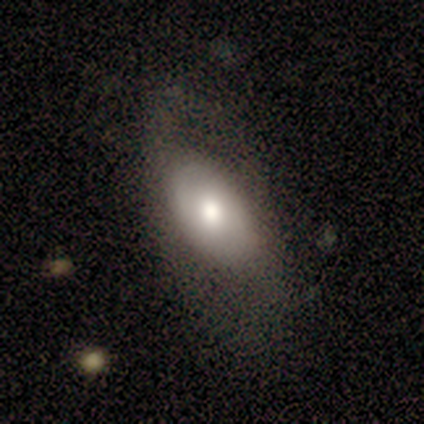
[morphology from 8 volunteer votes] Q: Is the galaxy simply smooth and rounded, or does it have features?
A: featured or disk — 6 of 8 (75%).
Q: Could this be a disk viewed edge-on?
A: no — 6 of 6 (100%).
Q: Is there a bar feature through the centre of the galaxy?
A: no — 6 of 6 (100%).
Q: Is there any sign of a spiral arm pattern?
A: yes — 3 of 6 (50%, tied with no).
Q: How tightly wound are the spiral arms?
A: medium — 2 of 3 (67%).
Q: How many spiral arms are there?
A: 2 — 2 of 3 (67%).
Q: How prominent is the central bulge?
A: moderate — 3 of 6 (50%).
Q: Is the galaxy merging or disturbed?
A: none — 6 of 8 (75%).